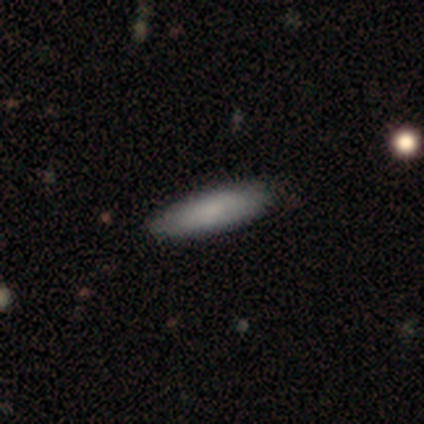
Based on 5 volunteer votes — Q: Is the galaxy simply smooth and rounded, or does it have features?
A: smooth — 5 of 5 (100%).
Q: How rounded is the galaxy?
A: cigar-shaped — 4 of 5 (80%).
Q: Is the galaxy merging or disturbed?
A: none — 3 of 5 (60%).